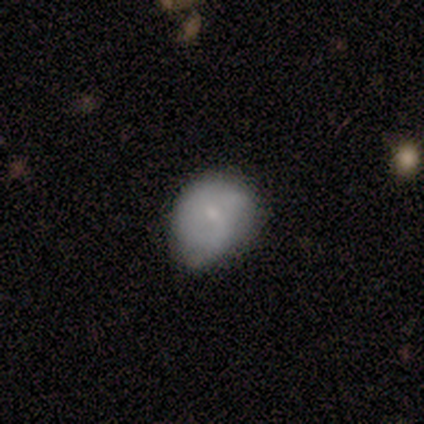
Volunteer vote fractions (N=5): Smooth or featured?
  - smooth: 60% *
  - featured or disk: 40%
  - star or artifact: 0%
How rounded?
  - in between: 100% *
  - round: 0%
  - cigar-shaped: 0%
Merging?
  - minor disturbance: 60% *
  - none: 40%
  - major disturbance: 0%
  - merger: 0%